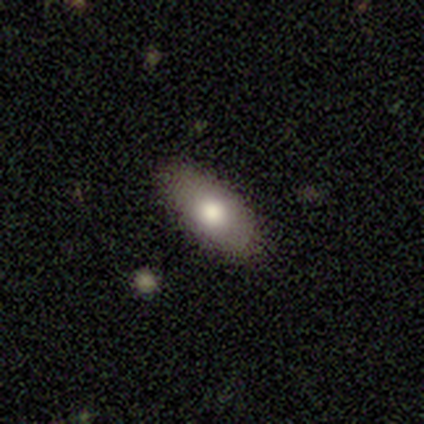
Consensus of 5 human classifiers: Overall: smooth (80%). How rounded: in between (75%). Merging: none (80%).